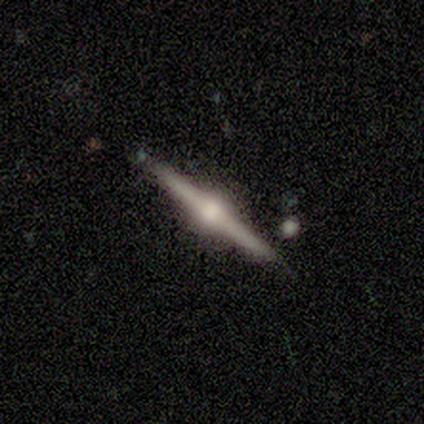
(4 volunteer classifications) smooth_or_featured: featured or disk (p=0.50) [tied with: star or artifact p=0.50]
disk_edge_on: yes (p=1.00)
edge_on_bulge: rounded (p=1.00)
merging: none (p=1.00)